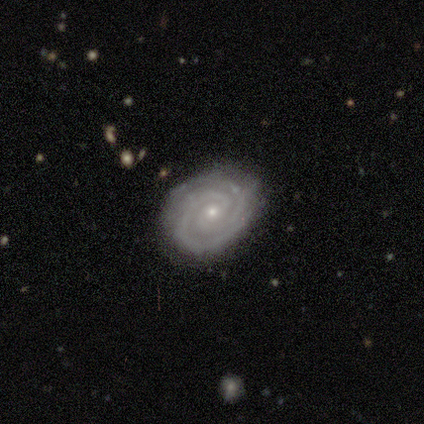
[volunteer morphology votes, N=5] smooth-or-featured: featured or disk: 100% | smooth: 0% | star or artifact: 0%
  disk-edge-on: no: 100% | yes: 0%
    bar: no: 80% | weak: 20% | strong: 0%
    has-spiral-arms: yes: 100% | no: 0%
      spiral-winding: tight: 80% | medium: 20% | loose: 0%
      spiral-arm-count: 2: 40% (tied) | 3: 40% (tied) | can't tell: 20% | 1: 0% | 4: 0% | more than 4: 0%
    bulge-size: small: 80% | moderate: 20% | dominant: 0% | large: 0% | none: 0%
  merging: none: 100% | minor disturbance: 0% | major disturbance: 0% | merger: 0%